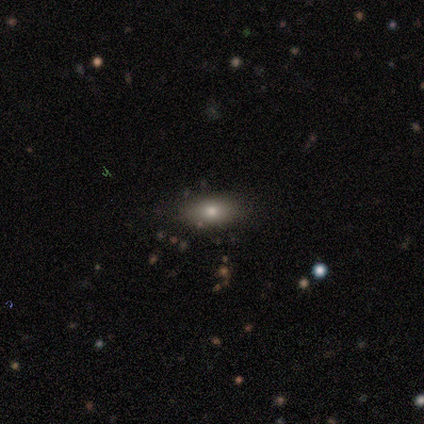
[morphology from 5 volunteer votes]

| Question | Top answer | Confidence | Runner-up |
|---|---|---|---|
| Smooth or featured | smooth | 100% | — |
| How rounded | in between | 80% | cigar-shaped (20%) |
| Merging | none | 80% | minor disturbance (20%) |